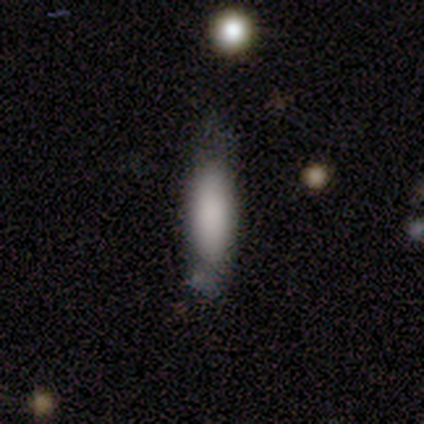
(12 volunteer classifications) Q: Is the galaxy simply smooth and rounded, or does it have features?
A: smooth — 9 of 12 (75%).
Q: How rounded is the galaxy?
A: in between — 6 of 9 (67%).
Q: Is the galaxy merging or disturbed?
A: none — 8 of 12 (67%).